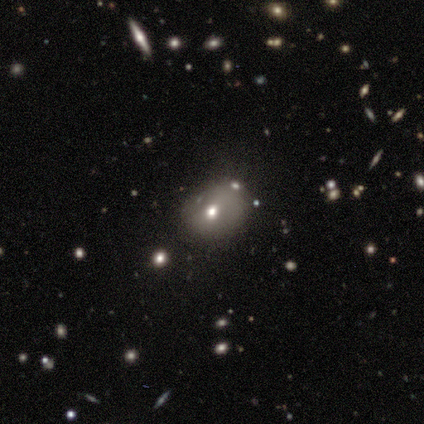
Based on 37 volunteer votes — Smooth or featured: smooth — 51% (star or artifact — 27%)
How rounded: round — 58% (in between — 42%)
Merging: none — 70% (minor disturbance — 26%)